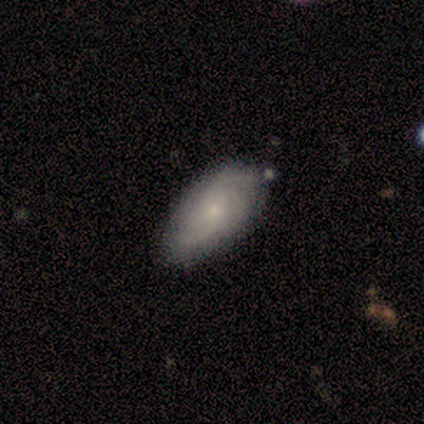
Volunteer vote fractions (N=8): This is likely a featured or disk galaxy (62%). It is clearly not viewed edge-on (100%). Bar: clearly no (80%). Spiral arm pattern: clearly yes (100%). Spiral arm count: likely can't tell (60%). Spiral winding: marginally tight (40%, tied with medium). Central bulge: clearly small (100%). Merging: clearly none (86%).